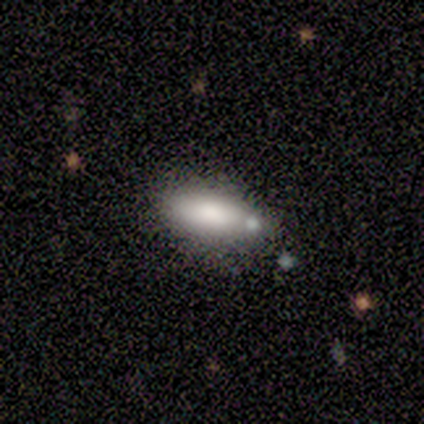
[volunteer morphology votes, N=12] This is clearly a smooth galaxy (92%). How rounded: likely in between (64%). Merging: clearly none (83%).